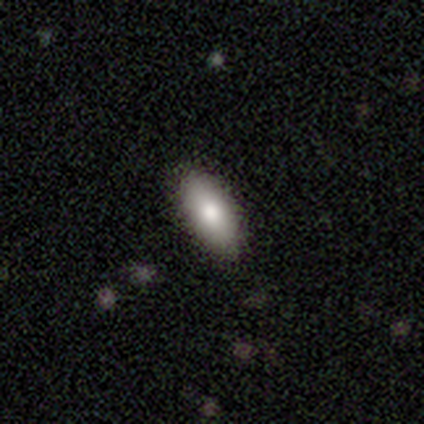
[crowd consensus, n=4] Smooth or featured: smooth — 50% (tied with featured or disk — 50%)
How rounded: in between — 100%
Merging: none — 100%